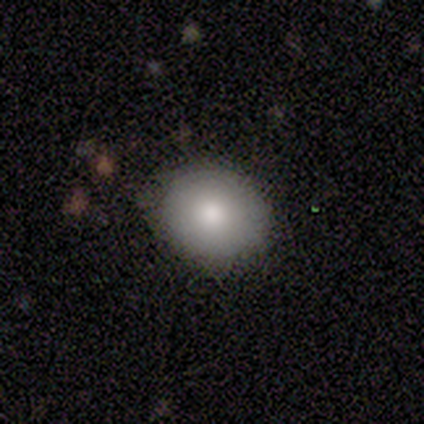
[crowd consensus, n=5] Volunteers were most divided on "how rounded": in between: 80%, round: 20%, cigar-shaped: 0%. More confident: smooth or featured — smooth (100%); merging — none (100%).